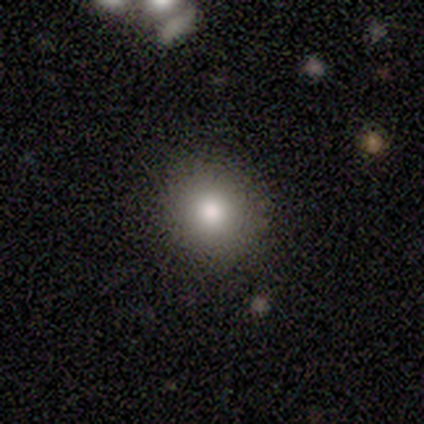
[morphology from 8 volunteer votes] A smooth galaxy with no disk features (75%) that is round (100%).

Vote fractions:
- Smooth or featured? smooth: 75% / featured or disk: 12% / star or artifact: 12%
- How rounded? round: 100% / in between: 0% / cigar-shaped: 0%
- Merging? none: 100% / minor disturbance: 0% / major disturbance: 0% / merger: 0%